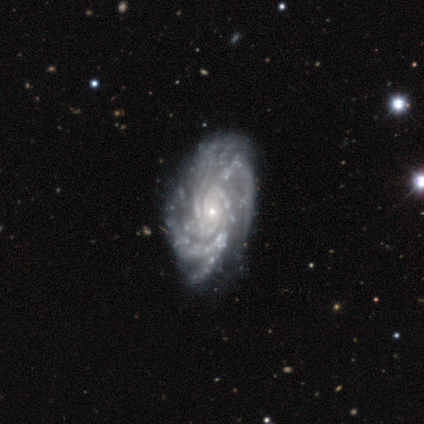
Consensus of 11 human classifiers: Morphology: type=featured or disk (91%); edge-on=no (100%); bar=no (80%); spiral arms=yes (100%); winding=tight (60%); arm count=more than 4 (50%); bulge=small (100%); merging=none (90%).